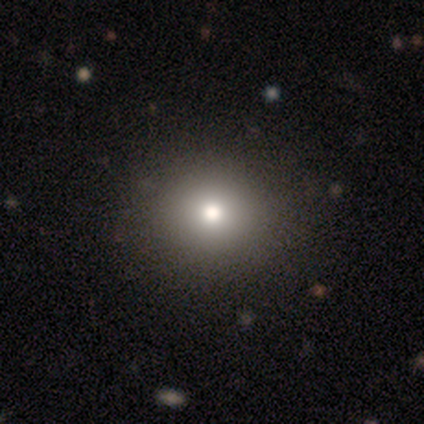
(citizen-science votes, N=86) Smooth or featured? 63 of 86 (73%) said smooth. How rounded? 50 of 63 (79%) said round. Merging? 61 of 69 (88%) said none.